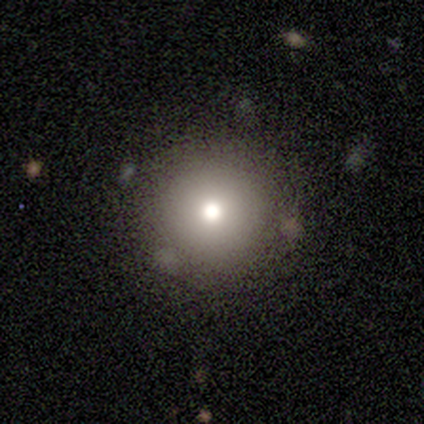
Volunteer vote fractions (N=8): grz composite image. It shows a smooth galaxy with no disk features (75%) that is round (100%). Merging: none (86%).